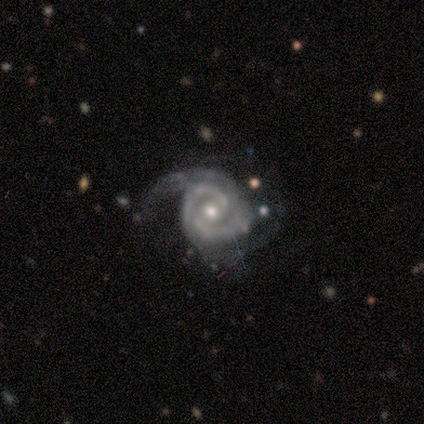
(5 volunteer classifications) Q: Smooth or featured?
A: featured or disk (100%)
Q: Edge-on disk?
A: no (100%)
Q: Bar?
A: weak (40%); tied with: no (40%)
Q: Spiral arms?
A: yes (100%)
Q: Spiral winding?
A: medium (60%); runner-up: tight (40%)
Q: Spiral arm count?
A: 2 (100%)
Q: Bulge size?
A: moderate (80%); runner-up: small (20%)
Q: Merging?
A: none (80%); runner-up: minor disturbance (20%)